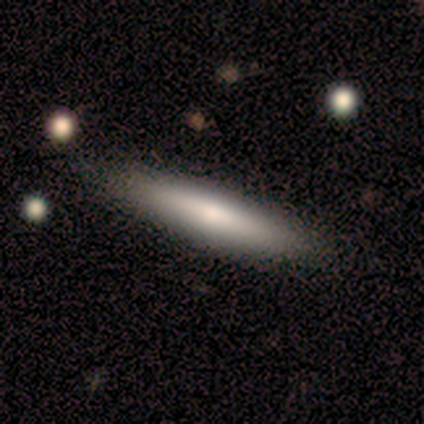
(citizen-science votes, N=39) This is likely a smooth galaxy (67%). How rounded: clearly cigar-shaped (85%). Merging: clearly none (82%).